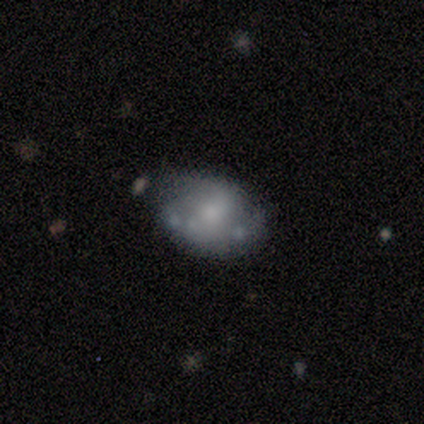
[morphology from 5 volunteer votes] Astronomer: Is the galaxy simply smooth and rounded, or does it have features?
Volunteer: featured or disk — 40%, tied with star or artifact at 40%.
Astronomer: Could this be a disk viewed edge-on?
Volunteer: no — 100%.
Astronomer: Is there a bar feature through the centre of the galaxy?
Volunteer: weak — 100%.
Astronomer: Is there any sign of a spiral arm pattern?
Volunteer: no — 100%.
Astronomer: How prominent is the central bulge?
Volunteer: small — 100%.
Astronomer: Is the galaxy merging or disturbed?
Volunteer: none — 33%, tied with minor disturbance and major disturbance at 33%.